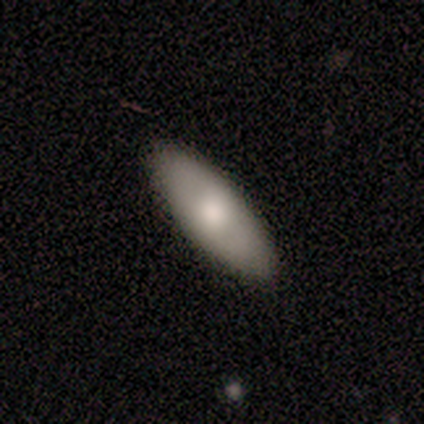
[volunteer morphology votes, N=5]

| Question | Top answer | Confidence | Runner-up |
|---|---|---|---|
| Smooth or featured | smooth | 100% | — |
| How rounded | in between | 100% | — |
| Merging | none | 100% | — |